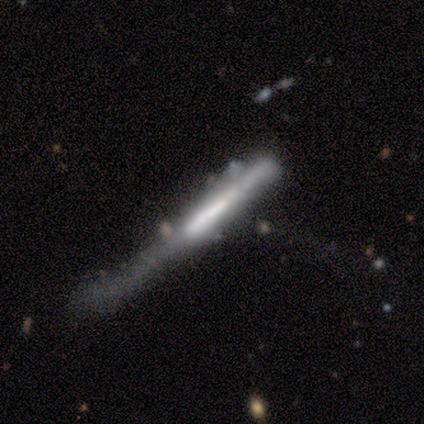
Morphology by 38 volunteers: featured or disk 58%, smooth 34%, star or artifact 8%. Down the decision tree: edge-on disk — yes (86%); edge-on bulge — none (68%); merging — major disturbance (37%).